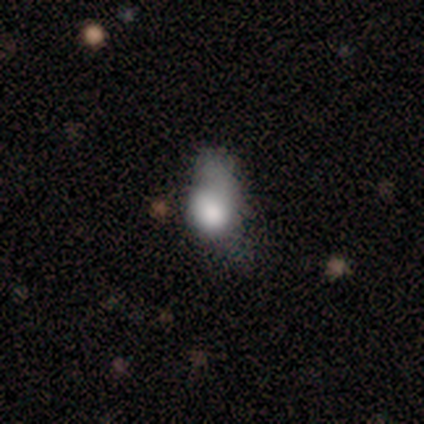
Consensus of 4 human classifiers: Q: Smooth or featured?
A: smooth (75%); runner-up: featured or disk (25%)
Q: How rounded?
A: in between (67%); runner-up: round (33%)
Q: Merging?
A: major disturbance (75%); runner-up: merger (25%)